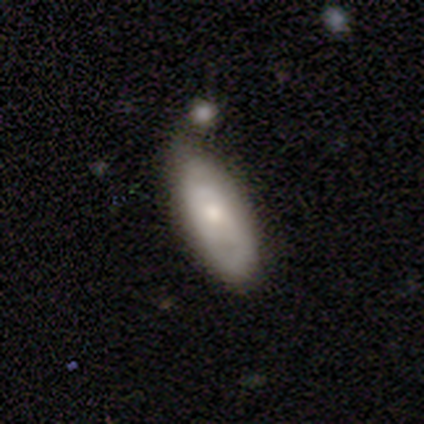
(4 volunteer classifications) Morphology: type=smooth (100%); roundness=in between (100%); merging=none (75%).